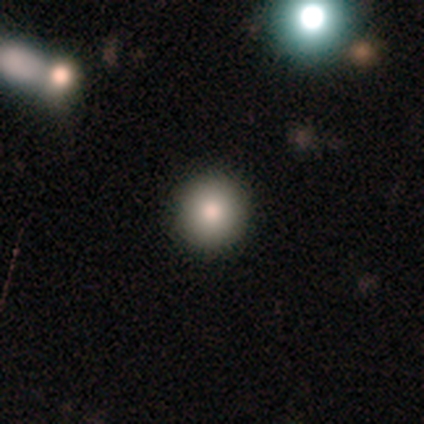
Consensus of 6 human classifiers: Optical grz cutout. It shows a smooth galaxy with no disk features (100%) that is round (83%). Merging: none (50%, tied with minor disturbance).